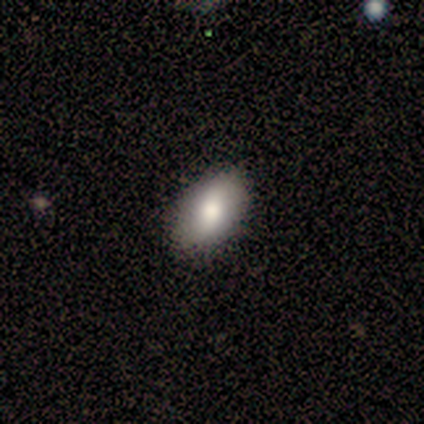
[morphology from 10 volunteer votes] A smooth galaxy with no disk features (90%) that is in between round and cigar-shaped (100%).

Vote fractions:
- Smooth or featured? smooth: 90% / featured or disk: 10% / star or artifact: 0%
- How rounded? in between: 100% / round: 0% / cigar-shaped: 0%
- Merging? none: 80% / minor disturbance: 20% / major disturbance: 0% / merger: 0%